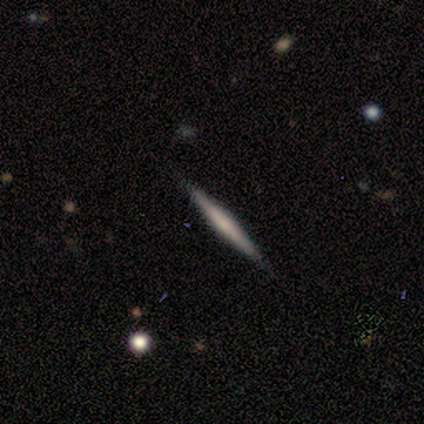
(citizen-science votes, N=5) Morphology: type=featured or disk (80%); edge-on=yes (100%); edge-on bulge=none (50%, tied with rounded); merging=none (100%).